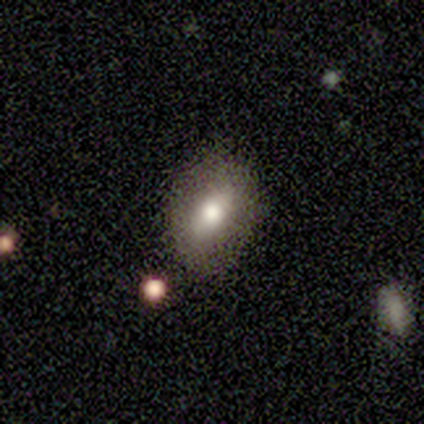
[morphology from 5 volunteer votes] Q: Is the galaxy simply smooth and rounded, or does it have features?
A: smooth — 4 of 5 (80%).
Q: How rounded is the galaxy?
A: in between — 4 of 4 (100%).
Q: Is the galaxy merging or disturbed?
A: none — 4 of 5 (80%).